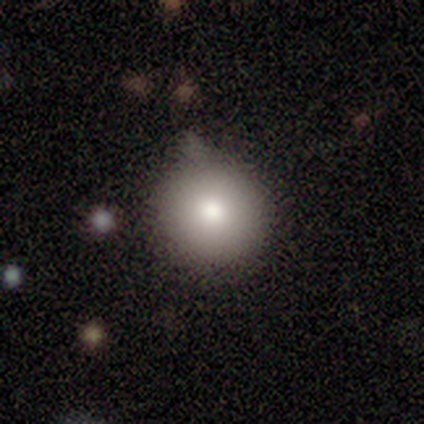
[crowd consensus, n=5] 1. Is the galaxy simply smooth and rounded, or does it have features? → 100% smooth, 0% featured or disk, 0% star or artifact.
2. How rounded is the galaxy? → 100% round, 0% in between, 0% cigar-shaped.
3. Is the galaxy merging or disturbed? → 60% minor disturbance, 20% none, 20% major disturbance, 0% merger.